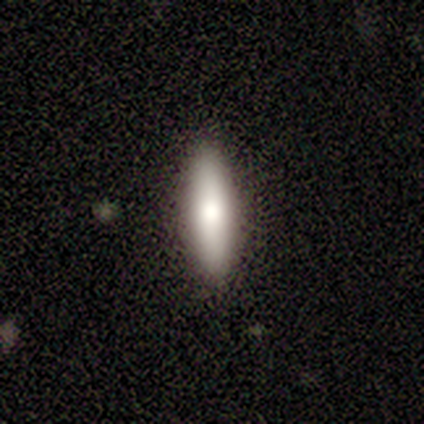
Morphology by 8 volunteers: Smooth or featured? smooth (75%)
How rounded? cigar-shaped (83%)
Merging? none (88%)